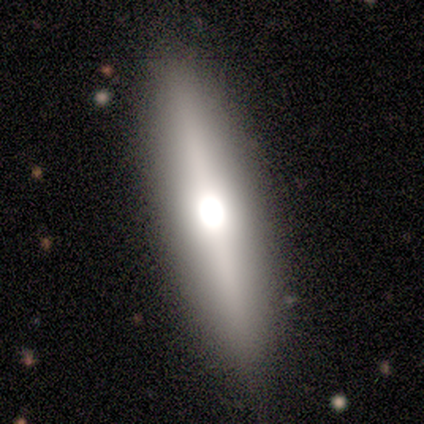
This appears to be a featured or disk galaxy (80%) viewed edge-on (100%) with a rounded central bulge (100%). Merging: none (100%).